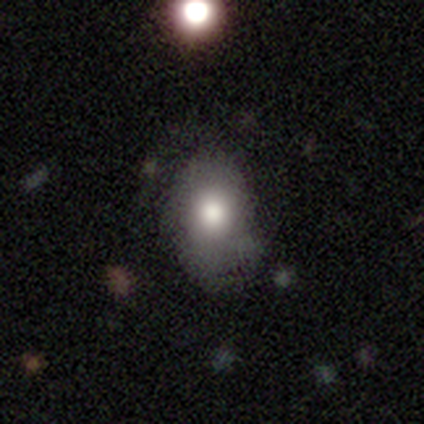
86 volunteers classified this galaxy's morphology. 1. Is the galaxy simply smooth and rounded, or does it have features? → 70% smooth, 19% featured or disk, 12% star or artifact.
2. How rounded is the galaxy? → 77% in between, 22% round, 2% cigar-shaped.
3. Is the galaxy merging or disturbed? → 67% none, 26% minor disturbance, 5% major disturbance, 1% merger.